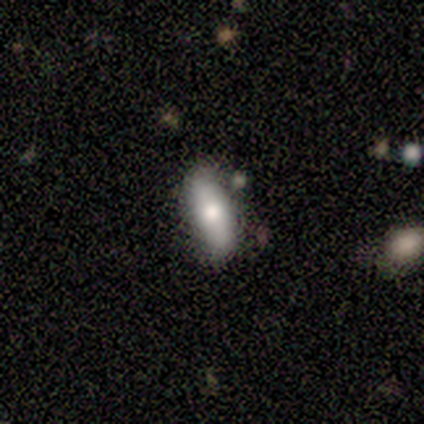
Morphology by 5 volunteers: Q: Smooth or featured?
A: smooth (80%); runner-up: featured or disk (20%)
Q: How rounded?
A: in between (100%)
Q: Merging?
A: none (100%)